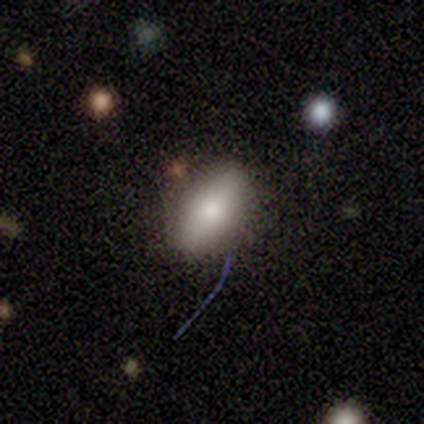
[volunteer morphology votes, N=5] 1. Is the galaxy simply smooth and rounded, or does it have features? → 100% smooth, 0% featured or disk, 0% star or artifact.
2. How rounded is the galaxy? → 80% in between, 20% cigar-shaped, 0% round.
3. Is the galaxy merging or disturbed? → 60% none, 40% minor disturbance, 0% major disturbance, 0% merger.